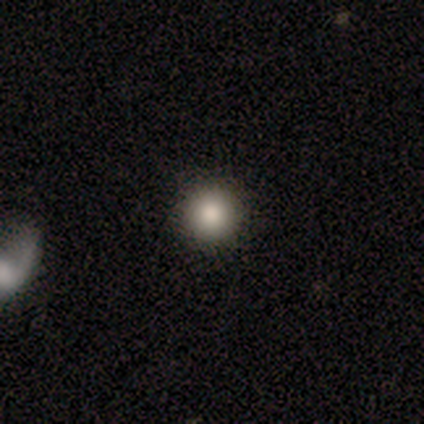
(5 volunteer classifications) Consensus on every question: smooth or featured — smooth (100%); how rounded — round (100%); merging — none (100%).